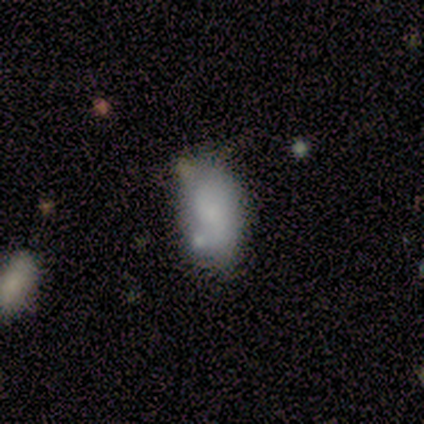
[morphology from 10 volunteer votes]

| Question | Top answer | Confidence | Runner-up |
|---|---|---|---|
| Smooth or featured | smooth | 90% | star or artifact (10%) |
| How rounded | in between | 89% | round (11%) |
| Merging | none | 67% | minor disturbance (11%) |